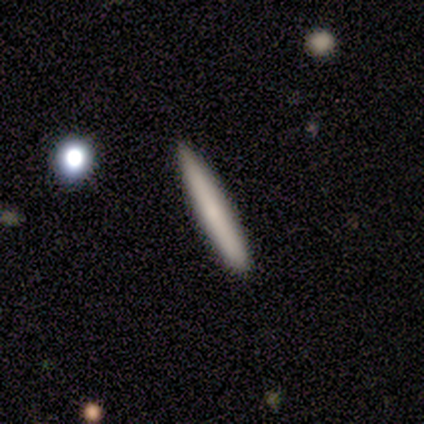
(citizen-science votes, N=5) Smooth or featured? 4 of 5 (80%) said smooth. How rounded? 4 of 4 (100%) said cigar-shaped. Merging? 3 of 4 (75%) said none.